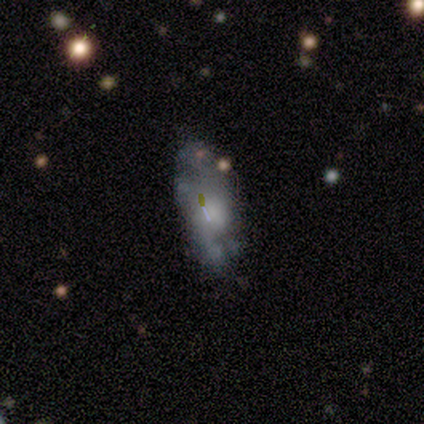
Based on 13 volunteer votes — A smooth galaxy with no disk features (54%) that is in between round and cigar-shaped (100%). Merging: none (38%, tied with major disturbance).